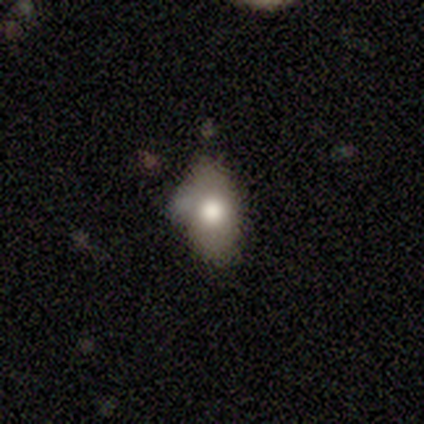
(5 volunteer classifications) smooth-or-featured: smooth: 80% | featured or disk: 20% | star or artifact: 0%
  how-rounded: in between: 100% | round: 0% | cigar-shaped: 0%
  merging: none: 40% (tied) | minor disturbance: 40% (tied) | major disturbance: 20% | merger: 0%